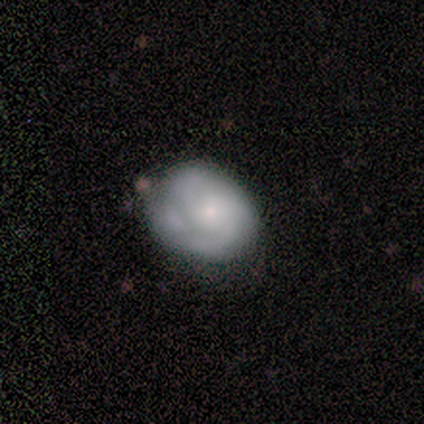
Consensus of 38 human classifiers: Q: Smooth or featured?
A: featured or disk (50%); runner-up: smooth (47%)
Q: Edge-on disk?
A: no (100%)
Q: Bar?
A: no (79%); runner-up: weak (21%)
Q: Spiral arms?
A: yes (74%); runner-up: no (26%)
Q: Spiral winding?
A: tight (71%); runner-up: medium (21%)
Q: Spiral arm count?
A: 2 (57%); runner-up: can't tell (29%)
Q: Bulge size?
A: small (68%); runner-up: moderate (26%)
Q: Merging?
A: none (51%); runner-up: minor disturbance (43%)